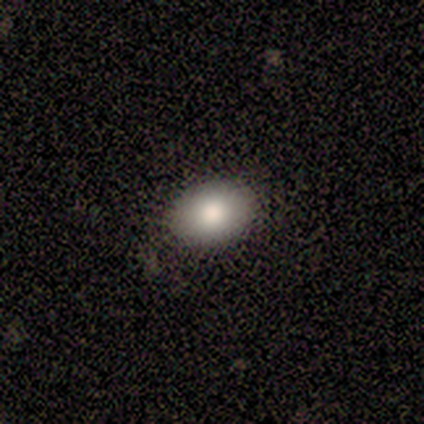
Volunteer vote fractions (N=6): This appears to be a smooth galaxy with no disk features (83%) that is in between round and cigar-shaped (80%). Merging: none (67%).